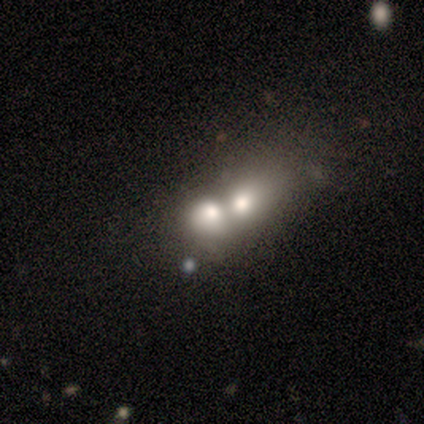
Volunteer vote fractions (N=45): A smooth galaxy with no disk features (76%) that is in between round and cigar-shaped (59%). Merging: merger (64%).